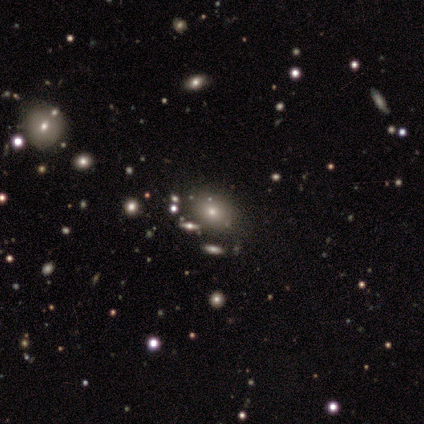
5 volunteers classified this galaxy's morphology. Volunteers were most divided on "how rounded" (2-way tie): round: 50%, in between: 50%, cigar-shaped: 0%. More confident: merging — none (100%); smooth or featured — smooth (80%).